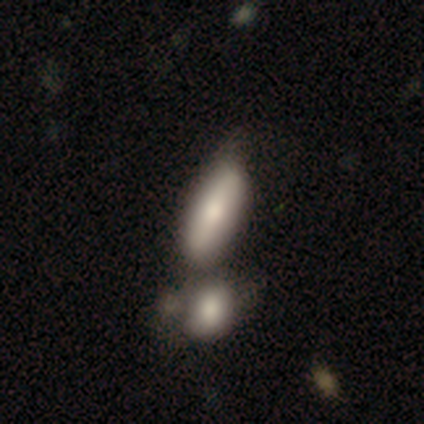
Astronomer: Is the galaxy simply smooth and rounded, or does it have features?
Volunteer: smooth — 40%, tied with featured or disk at 40%.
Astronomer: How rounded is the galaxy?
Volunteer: in between — 100%.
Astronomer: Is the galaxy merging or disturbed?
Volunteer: none — 75%.